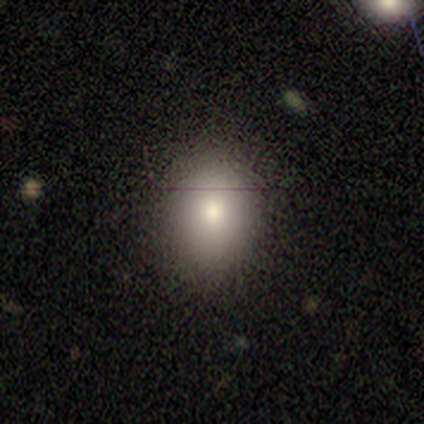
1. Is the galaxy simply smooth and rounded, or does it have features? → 85% smooth, 10% featured or disk, 5% star or artifact.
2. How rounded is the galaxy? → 64% round, 36% in between, 0% cigar-shaped.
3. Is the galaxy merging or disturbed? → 86% none, 8% minor disturbance, 5% major disturbance, 0% merger.